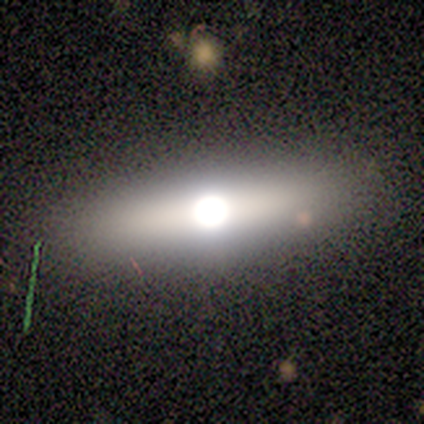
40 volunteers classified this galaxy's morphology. This is possibly a featured or disk galaxy (50%). It is clearly viewed edge-on (90%). Edge-on bulge: clearly rounded (94%). Merging: clearly none (82%).